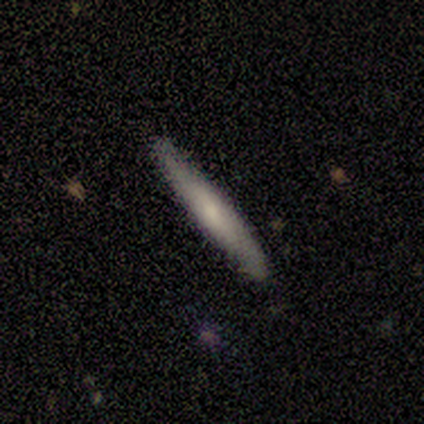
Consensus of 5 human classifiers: This is clearly a smooth galaxy (100%). How rounded: clearly cigar-shaped (100%). Merging: clearly none (80%).